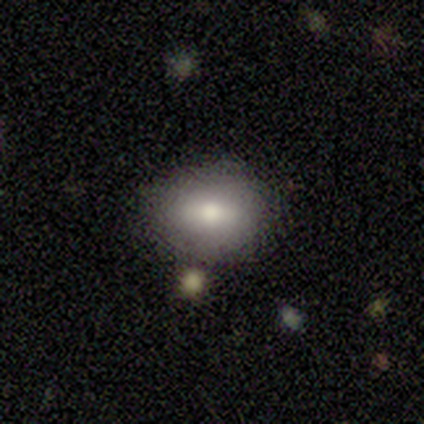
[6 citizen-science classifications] Morphology: type=smooth (100%); roundness=in between (67%); merging=none (100%).